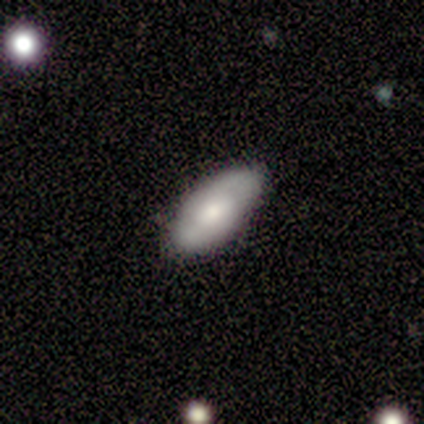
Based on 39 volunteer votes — A smooth galaxy with no disk features (59%) that is in between round and cigar-shaped (96%).

Vote fractions:
- Smooth or featured? smooth: 59% / featured or disk: 38% / star or artifact: 3%
- How rounded? in between: 96% / cigar-shaped: 4% / round: 0%
- Merging? none: 89% / minor disturbance: 5% / major disturbance: 3% / merger: 3%